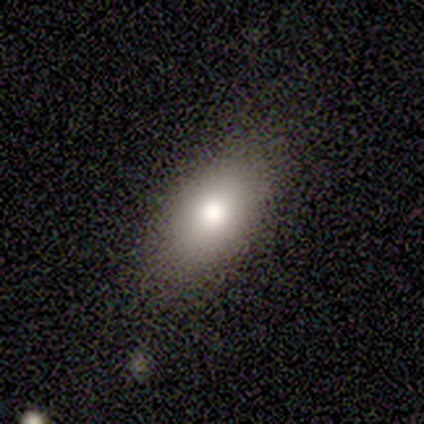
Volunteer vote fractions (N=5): A smooth galaxy with no disk features (100%) that is in between round and cigar-shaped (80%). Merging: none (80%).